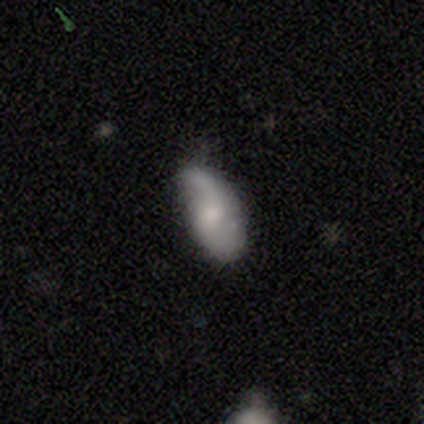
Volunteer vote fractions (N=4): Smooth or featured: smooth — 50% (tied with featured or disk — 50%)
How rounded: in between — 100%
Merging: none — 50% (tied with minor disturbance — 50%)